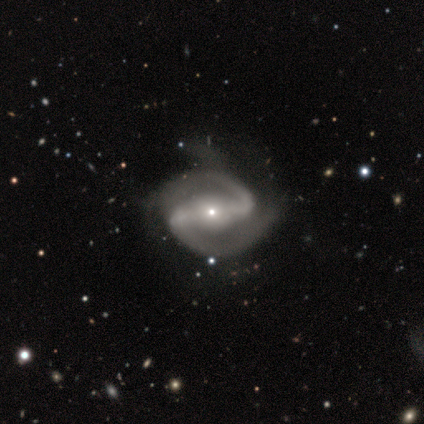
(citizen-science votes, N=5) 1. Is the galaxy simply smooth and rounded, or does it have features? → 100% featured or disk, 0% smooth, 0% star or artifact.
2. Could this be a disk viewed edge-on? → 100% no, 0% yes.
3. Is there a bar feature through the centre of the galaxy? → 60% strong, 40% weak, 0% no.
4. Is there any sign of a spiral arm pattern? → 100% yes, 0% no.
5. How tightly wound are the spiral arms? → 60% medium, 20% tight, 20% loose.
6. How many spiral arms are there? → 100% 2, 0% 1, 0% 3, 0% 4, 0% more than 4, 0% can't tell.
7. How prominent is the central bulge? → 80% small, 20% none, 0% dominant, 0% large, 0% moderate.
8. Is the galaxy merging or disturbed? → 60% none, 40% minor disturbance, 0% major disturbance, 0% merger.